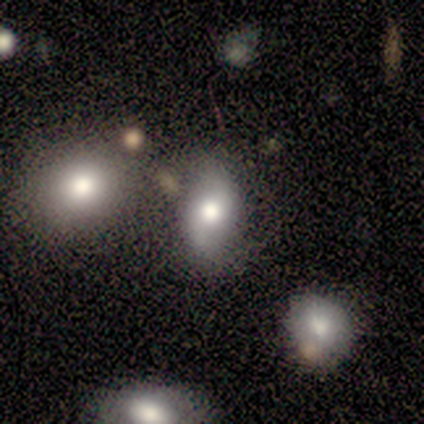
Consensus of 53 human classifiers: Morphology: type=smooth (45%, tied with featured or disk); roundness=in between (79%); merging=none (46%).